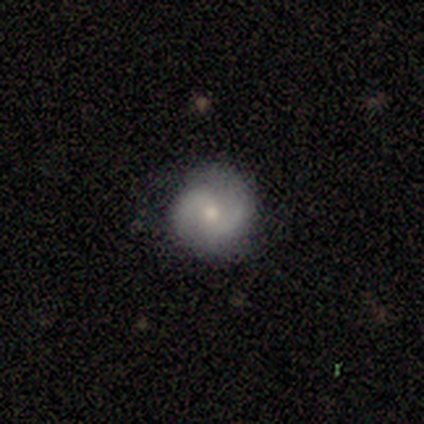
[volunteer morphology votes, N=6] Smooth or featured: featured or disk — 83% (star or artifact — 17%)
Edge-on disk: no — 100%
Bar: no — 60% (weak — 40%)
Spiral arms: yes — 100%
Spiral winding: medium — 80% (loose — 20%)
Spiral arm count: 2 — 80% (can't tell — 20%)
Bulge size: moderate — 80% (small — 20%)
Merging: none — 60% (minor disturbance — 40%)